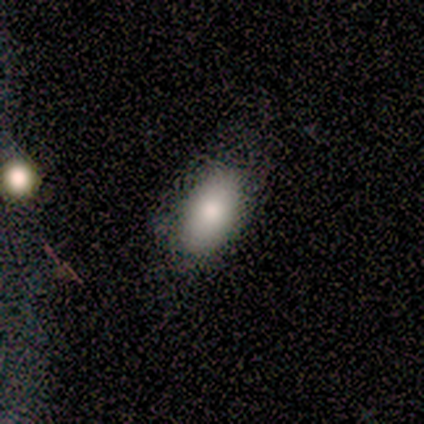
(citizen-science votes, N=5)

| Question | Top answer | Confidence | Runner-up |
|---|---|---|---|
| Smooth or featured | smooth | 80% | featured or disk (20%) |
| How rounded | in between | 100% | — |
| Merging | none | 40% | minor disturbance (20%) |